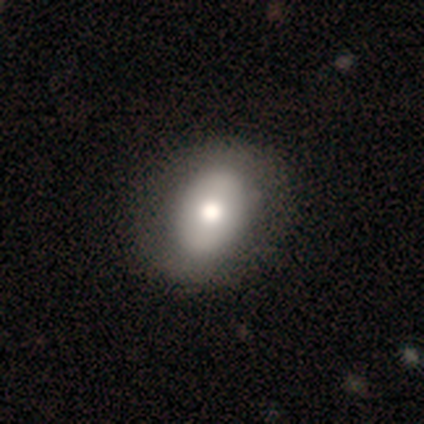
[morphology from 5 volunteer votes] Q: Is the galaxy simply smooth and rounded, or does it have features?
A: smooth — 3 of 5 (60%).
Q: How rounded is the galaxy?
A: in between — 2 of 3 (67%).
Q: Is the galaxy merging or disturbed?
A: none — 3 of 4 (75%).